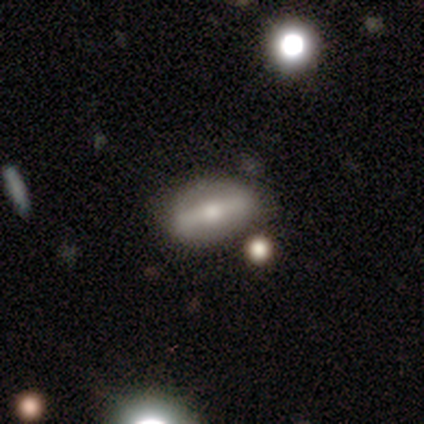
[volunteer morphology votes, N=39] Q: Smooth or featured?
A: featured or disk (59%); runner-up: smooth (36%)
Q: Edge-on disk?
A: no (57%); runner-up: yes (43%)
Q: Bar?
A: strong (69%); runner-up: no (31%)
Q: Spiral arms?
A: no (62%); runner-up: yes (38%)
Q: Bulge size?
A: moderate (54%); runner-up: small (38%)
Q: Merging?
A: none (78%); runner-up: minor disturbance (14%)